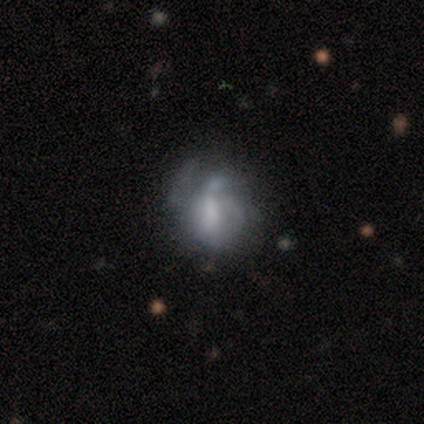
Morphology: type=featured or disk (100%); edge-on=no (100%); bar=weak (60%); spiral arms=no (60%); bulge=small (40%, tied with none); merging=none (40%, tied with major disturbance).